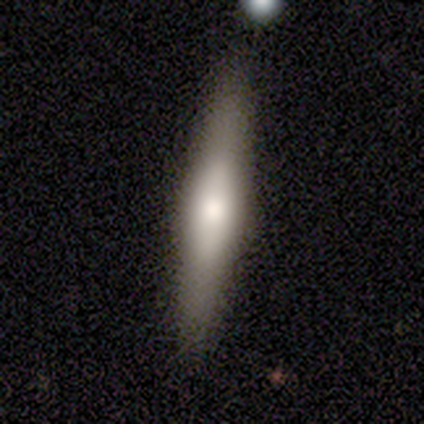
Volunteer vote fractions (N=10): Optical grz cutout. It shows a smooth galaxy with no disk features (70%) that is cigar-shaped (100%). Merging: none (90%).